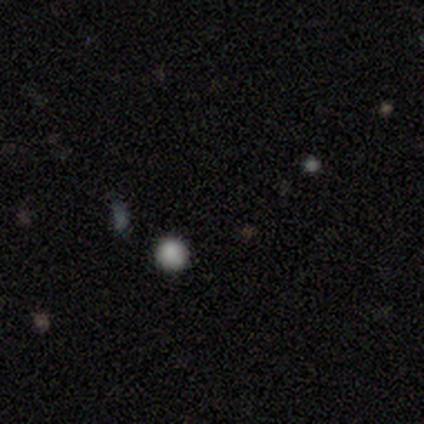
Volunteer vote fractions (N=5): A star or artifact, not a galaxy (80%).

Vote fractions:
- Smooth or featured? star or artifact: 80% / smooth: 20% / featured or disk: 0%